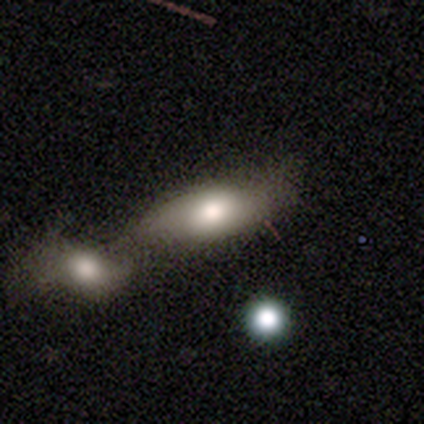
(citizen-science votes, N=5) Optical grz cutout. It shows a smooth galaxy with no disk features (60%) that is in between round and cigar-shaped (100%). Merging: none (50%, tied with merger).